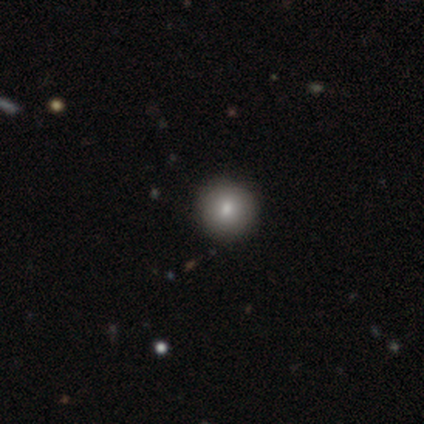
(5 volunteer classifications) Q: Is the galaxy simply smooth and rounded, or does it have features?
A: smooth — 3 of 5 (60%).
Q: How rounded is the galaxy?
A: round — 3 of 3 (100%).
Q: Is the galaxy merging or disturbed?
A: none — 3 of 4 (75%).